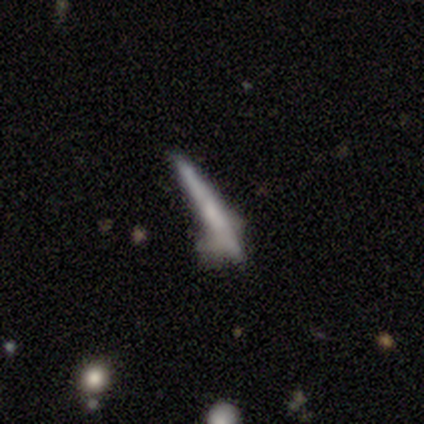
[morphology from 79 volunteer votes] type=smooth (51%); roundness=cigar-shaped (100%); merging=none (21%, tied with minor disturbance).